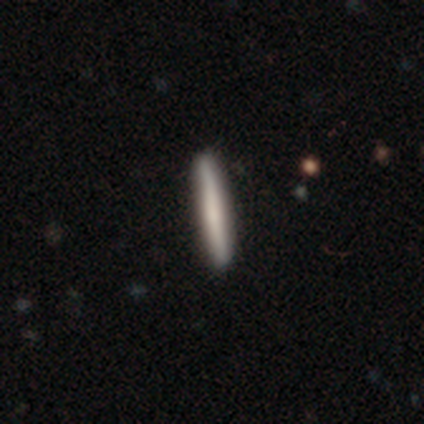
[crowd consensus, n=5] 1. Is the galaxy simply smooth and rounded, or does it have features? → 40% smooth (tied), 40% featured or disk (tied), 20% star or artifact.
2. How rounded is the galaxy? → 100% cigar-shaped, 0% round, 0% in between.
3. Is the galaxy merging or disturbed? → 100% none, 0% minor disturbance, 0% major disturbance, 0% merger.